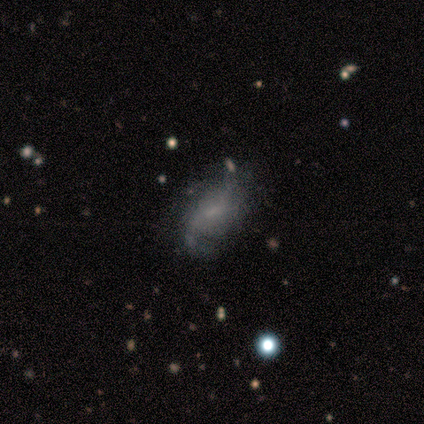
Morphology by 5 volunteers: smooth 60%, featured or disk 40%, star or artifact 0%. Down the decision tree: how rounded — in between (100%); merging — none (40%, tied with minor disturbance).